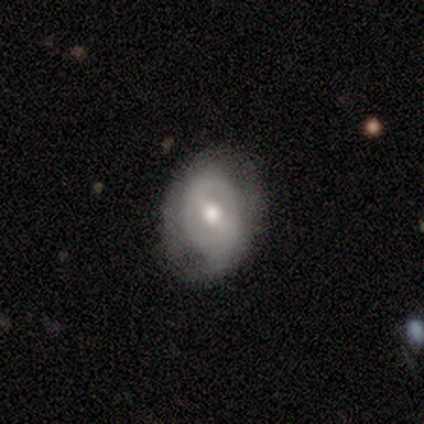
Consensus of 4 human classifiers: Smooth or featured?
  - featured or disk: 75% *
  - star or artifact: 25%
  - smooth: 0%
Edge-on disk?
  - no: 100% *
  - yes: 0%
Bar?
  - strong: 100% *
  - weak: 0%
  - no: 0%
Spiral arms?
  - no: 67% *
  - yes: 33%
Bulge size?
  - moderate: 67% *
  - small: 33%
  - dominant: 0%
  - large: 0%
  - none: 0%
Merging?
  - none: 67% *
  - minor disturbance: 33%
  - major disturbance: 0%
  - merger: 0%